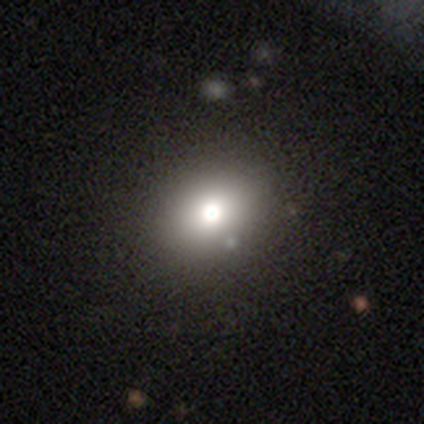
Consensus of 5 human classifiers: This appears to be a smooth galaxy with no disk features (80%) that is round (75%). Merging: none (100%).